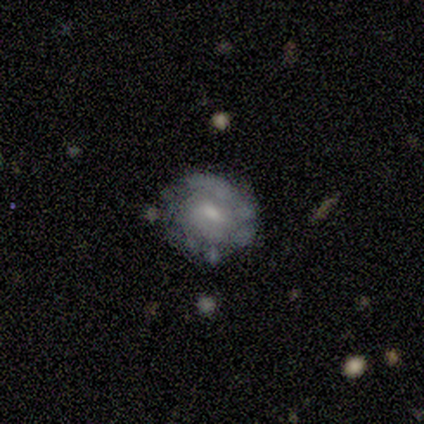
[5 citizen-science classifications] smooth-or-featured: featured or disk: 80% | smooth: 20% | star or artifact: 0%
  disk-edge-on: no: 100% | yes: 0%
    bar: weak: 50% (tied) | no: 50% (tied) | strong: 0%
    has-spiral-arms: yes: 50% (tied) | no: 50% (tied)
      spiral-winding: tight: 100% | medium: 0% | loose: 0%
      spiral-arm-count: can't tell: 100% | 1: 0% | 2: 0% | 3: 0% | 4: 0% | more than 4: 0%
    bulge-size: small: 75% | none: 25% | dominant: 0% | large: 0% | moderate: 0%
  merging: none: 80% | major disturbance: 20% | minor disturbance: 0% | merger: 0%